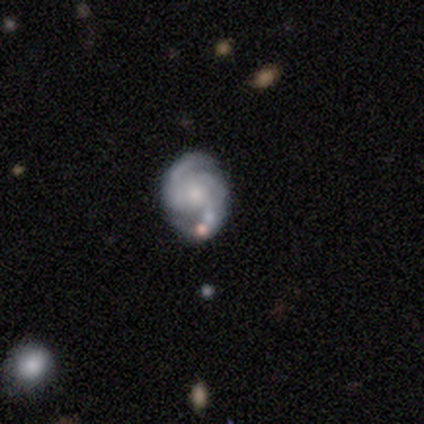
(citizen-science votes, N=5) smooth_or_featured: featured or disk (p=0.80) [alt: smooth p=0.20]
disk_edge_on: no (p=1.00)
bar: no (p=0.75) [alt: weak p=0.25]
has_spiral_arms: yes (p=1.00)
spiral_winding: medium (p=0.75) [alt: tight p=0.25]
spiral_arm_count: 2 (p=1.00)
bulge_size: small (p=0.50) [alt: moderate p=0.25]
merging: none (p=0.60) [alt: minor disturbance p=0.40]